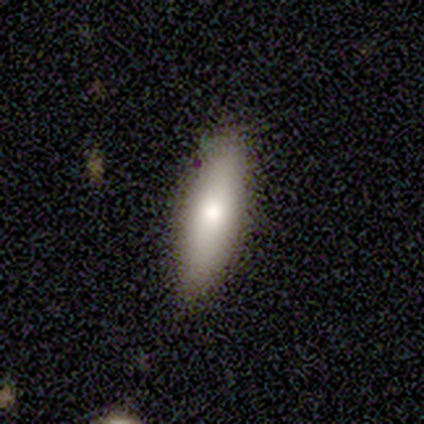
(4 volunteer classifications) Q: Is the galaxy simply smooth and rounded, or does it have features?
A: smooth — 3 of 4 (75%).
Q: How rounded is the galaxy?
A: in between — 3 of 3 (100%).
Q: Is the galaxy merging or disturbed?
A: none — 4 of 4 (100%).